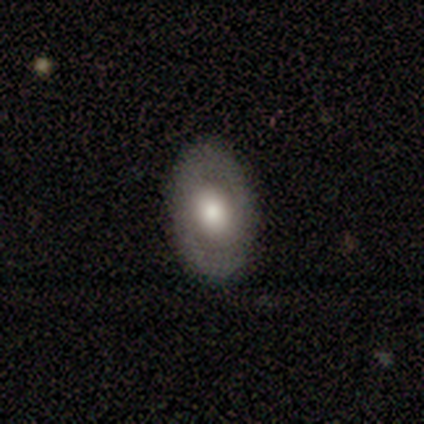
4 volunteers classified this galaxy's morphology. A smooth galaxy with no disk features (75%) that is in between round and cigar-shaped (100%). Merging: none (100%).